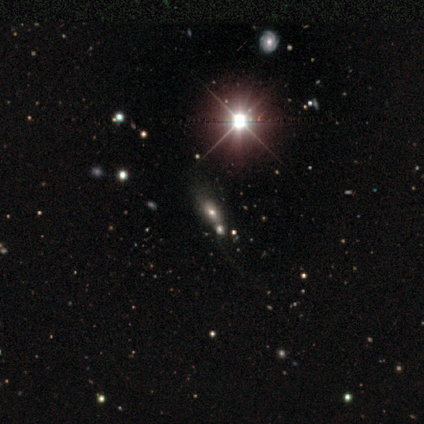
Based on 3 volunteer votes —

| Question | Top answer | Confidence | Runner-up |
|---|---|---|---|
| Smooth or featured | smooth | 33% | tied: featured or disk (33%), star or artifact (33%) |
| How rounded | in between | 100% | — |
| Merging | major disturbance | 100% | — |